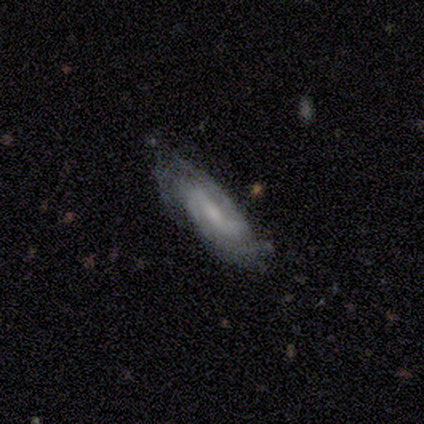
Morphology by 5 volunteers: Smooth or featured? featured or disk (100%)
Edge-on disk? no (60%)
Bar? weak (67%)
Spiral arms? yes (100%)
Spiral winding? medium (100%)
Spiral arm count? 2 (67%)
Bulge size? moderate (33%, tied with small and none)
Merging? minor disturbance (60%)